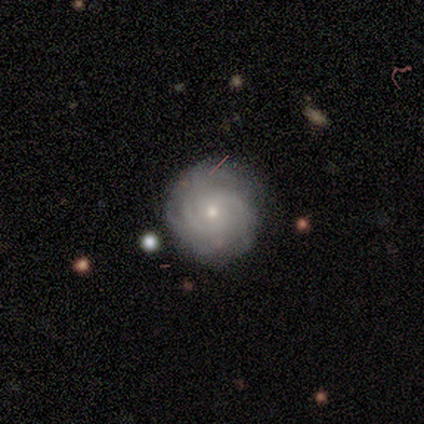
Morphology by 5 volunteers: Q: Smooth or featured?
A: featured or disk (60%); runner-up: smooth (20%)
Q: Edge-on disk?
A: no (100%)
Q: Bar?
A: no (100%)
Q: Spiral arms?
A: yes (100%)
Q: Spiral winding?
A: medium (67%); runner-up: tight (33%)
Q: Spiral arm count?
A: can't tell (100%)
Q: Bulge size?
A: small (100%)
Q: Merging?
A: none (75%); runner-up: minor disturbance (25%)